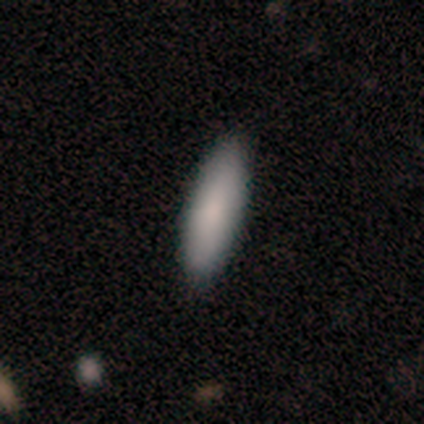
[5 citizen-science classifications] smooth_or_featured: smooth (p=0.60) [alt: featured or disk p=0.20]
how_rounded: cigar-shaped (p=1.00)
merging: none (p=0.75) [alt: minor disturbance p=0.25]